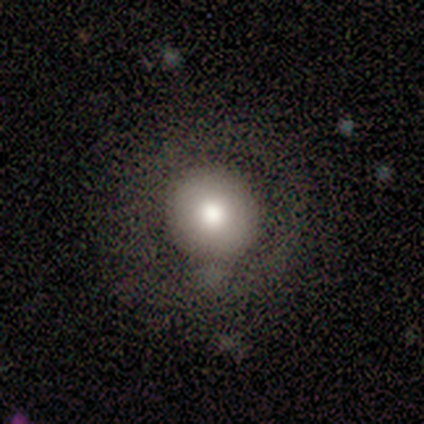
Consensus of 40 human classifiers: Smooth or featured? smooth (60%)
How rounded? round (100%)
Merging? none (75%)